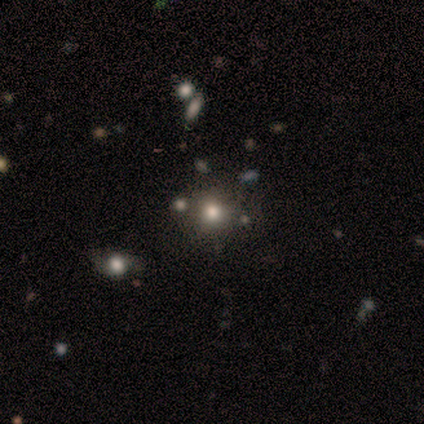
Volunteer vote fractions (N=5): smooth_or_featured: smooth (p=0.60) [alt: star or artifact p=0.40]
how_rounded: round (p=1.00)
merging: none (p=0.33) [tied with: minor disturbance p=0.33, major disturbance p=0.33]